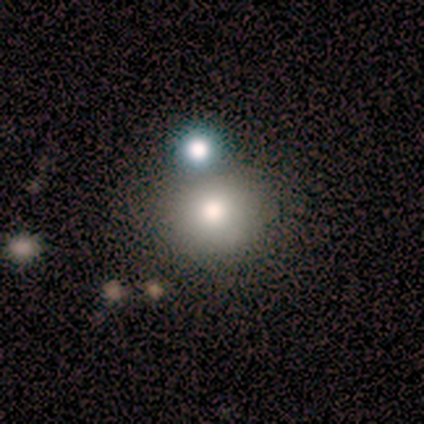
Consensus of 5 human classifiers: A smooth galaxy with no disk features (100%) that is round (80%).

Vote fractions:
- Smooth or featured? smooth: 100% / featured or disk: 0% / star or artifact: 0%
- How rounded? round: 80% / in between: 20% / cigar-shaped: 0%
- Merging? none: 100% / minor disturbance: 0% / major disturbance: 0% / merger: 0%